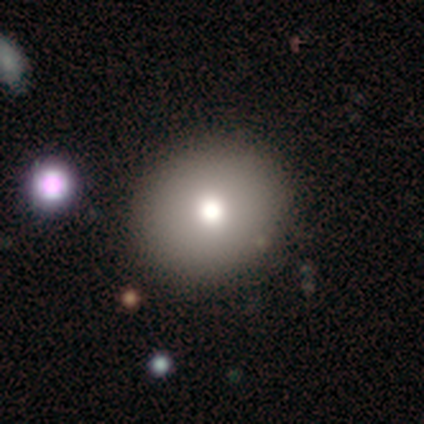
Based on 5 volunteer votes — smooth 60%, featured or disk 20%, star or artifact 20%. Down the decision tree: how rounded — round (67%); merging — none (75%).